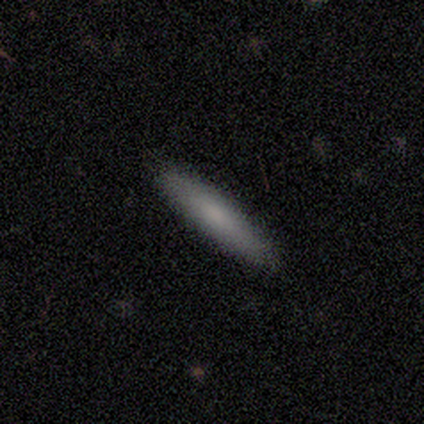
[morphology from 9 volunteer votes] This is possibly a smooth galaxy (56%). How rounded: clearly cigar-shaped (100%). Merging: clearly none (88%).